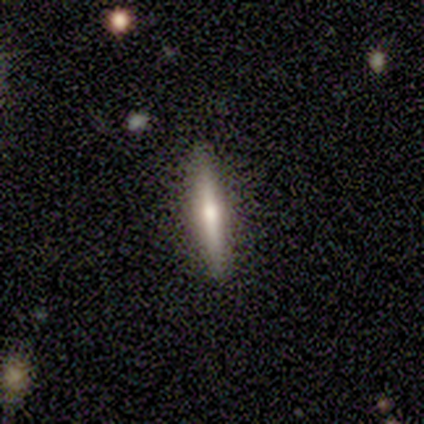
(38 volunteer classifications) Morphology: type=featured or disk (50%); edge-on=yes (95%); edge-on bulge=rounded (83%); merging=none (97%).